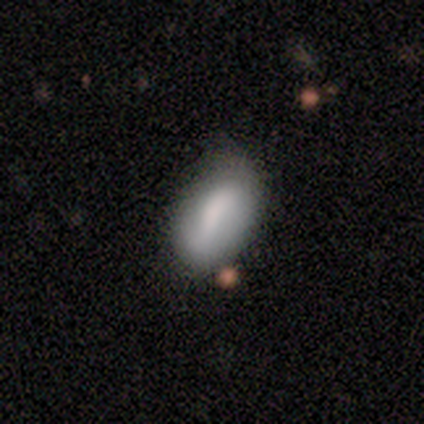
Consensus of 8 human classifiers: This is likely a smooth galaxy (62%). How rounded: clearly in between (100%). Merging: possibly none (50%, tied with minor disturbance).